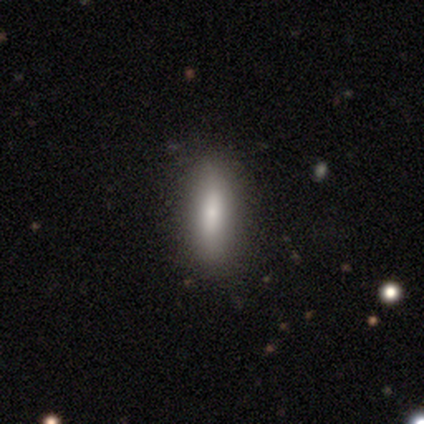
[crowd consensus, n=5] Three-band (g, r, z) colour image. It shows a smooth galaxy with no disk features (80%) that is in between round and cigar-shaped (50%, tied with cigar-shaped). Merging: none (100%).